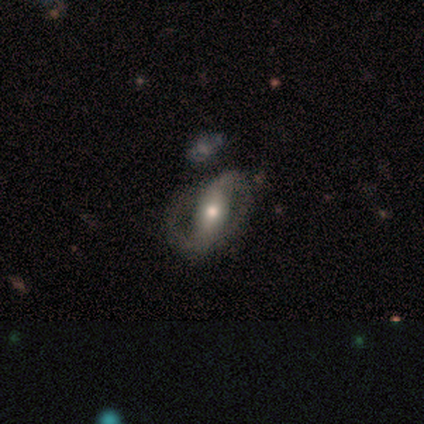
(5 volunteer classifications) Morphology: type=featured or disk (100%); edge-on=no (80%); bar=weak (50%); spiral arms=yes (75%); winding=medium (67%); arm count=2 (100%); bulge=small (75%); merging=minor disturbance (60%).